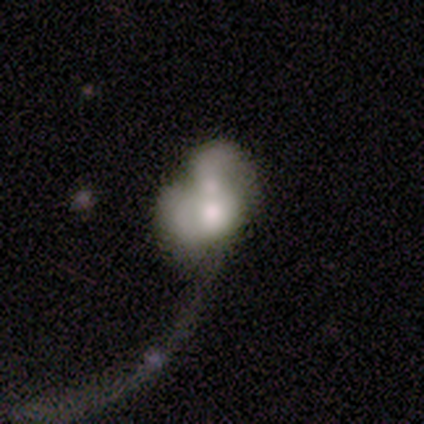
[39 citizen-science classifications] Smooth or featured? 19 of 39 (49%) said smooth. How rounded? 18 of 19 (95%) said in between. Merging? 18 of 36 (50%) said merger.